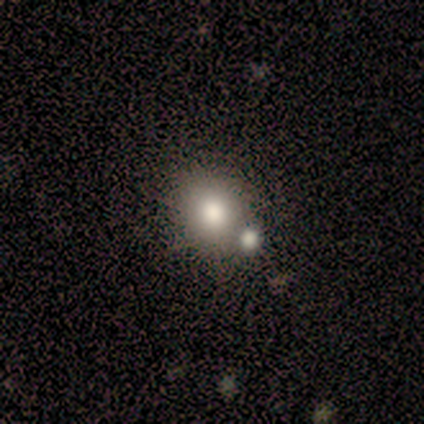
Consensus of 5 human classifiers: This is likely a smooth galaxy (60%). How rounded: clearly round (100%). Merging: likely none (67%).